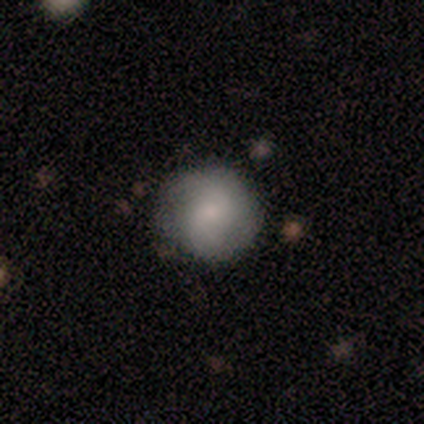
Smooth or featured? 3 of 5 (60%) said smooth. How rounded? 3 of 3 (100%) said round. Merging? 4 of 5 (80%) said none.